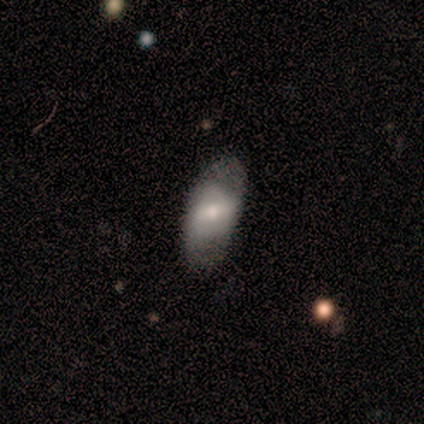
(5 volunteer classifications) Smooth or featured: smooth — 60% (featured or disk — 20%)
How rounded: in between — 67% (cigar-shaped — 33%)
Merging: none — 100%